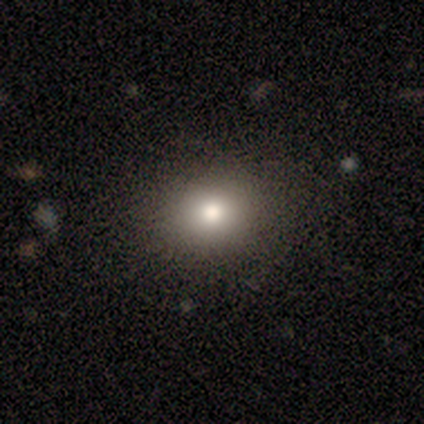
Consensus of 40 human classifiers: Q: Smooth or featured?
A: smooth (70%); runner-up: featured or disk (15%)
Q: How rounded?
A: in between (54%); runner-up: round (46%)
Q: Merging?
A: none (88%); runner-up: minor disturbance (6%)